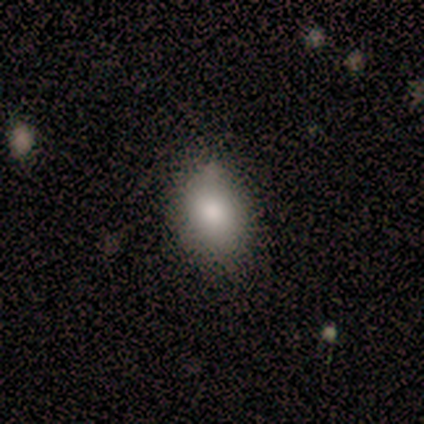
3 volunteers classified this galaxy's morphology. A smooth galaxy with no disk features (67%) that is in between round and cigar-shaped (100%).

Vote fractions:
- Smooth or featured? smooth: 67% / star or artifact: 33% / featured or disk: 0%
- How rounded? in between: 100% / round: 0% / cigar-shaped: 0%
- Merging? none: 50% (tied) / minor disturbance: 50% (tied) / major disturbance: 0% / merger: 0%